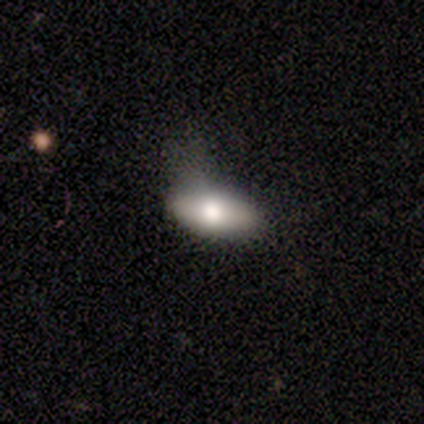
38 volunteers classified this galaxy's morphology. Smooth or featured?
  - smooth: 89% *
  - featured or disk: 5%
  - star or artifact: 5%
How rounded?
  - in between: 88% *
  - cigar-shaped: 9%
  - round: 3%
Merging?
  - minor disturbance: 39% *
  - none: 36%
  - major disturbance: 22%
  - merger: 3%